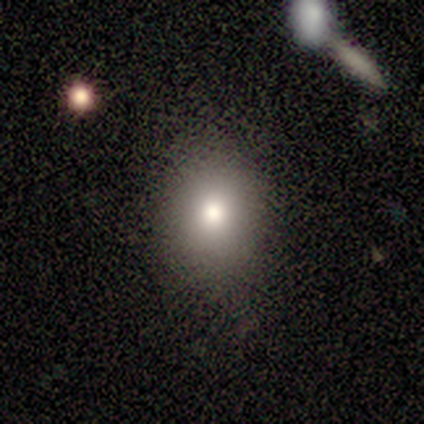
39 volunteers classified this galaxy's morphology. This appears to be a smooth galaxy with no disk features (87%) that is round (68%). Merging: none (83%).